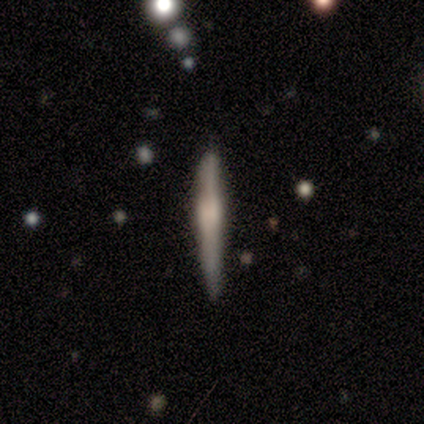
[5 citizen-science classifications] Overall: featured or disk (60%; smooth 40%). Edge-on disk: yes (100%). Edge-on bulge: rounded (67%; boxy 33%). Merging: none (100%).